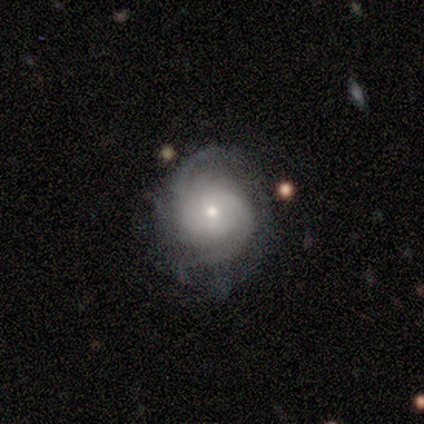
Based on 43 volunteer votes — featured or disk 81%, smooth 9%, star or artifact 9%. Down the decision tree: edge-on disk — no (97%); bar — no (85%); spiral arms — yes (97%); spiral arm count — 2 (39%); spiral winding — tight (52%); bulge size — small (79%); merging — none (64%).